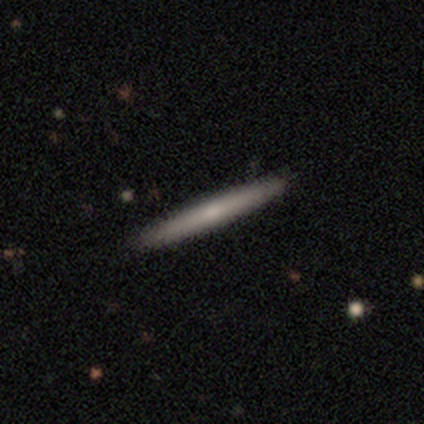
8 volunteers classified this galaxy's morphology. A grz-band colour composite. It shows a featured or disk galaxy (88%) viewed edge-on (100%) with no central bulge (71%). Merging: none (88%).